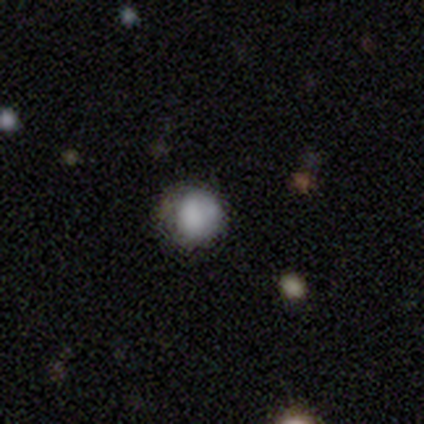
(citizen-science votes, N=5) This is clearly a smooth galaxy (80%). How rounded: likely round (75%). Merging: clearly none (100%).